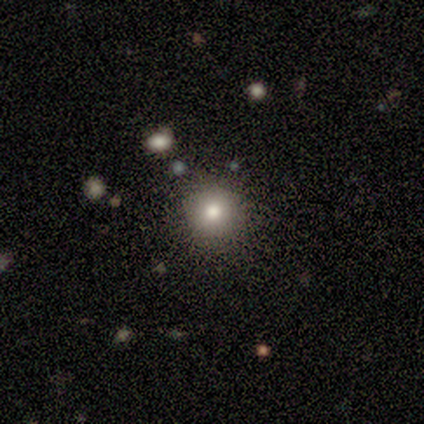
smooth-or-featured: smooth: 80% | star or artifact: 20% | featured or disk: 0%
  how-rounded: round: 100% | in between: 0% | cigar-shaped: 0%
  merging: none: 75% | minor disturbance: 25% | major disturbance: 0% | merger: 0%